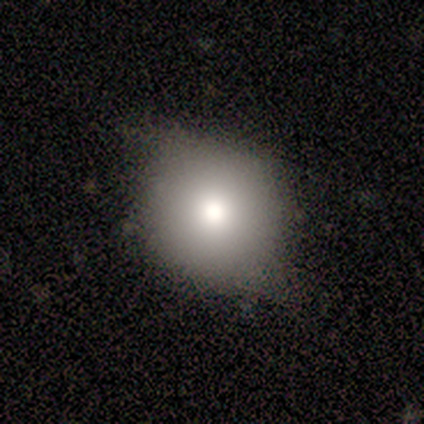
Smooth or featured? 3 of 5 (60%) said featured or disk. Edge-on disk? 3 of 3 (100%) said no. Bar? 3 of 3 (100%) said no. Spiral arms? 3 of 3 (100%) said no. Bulge size? 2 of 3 (67%) said moderate. Merging? 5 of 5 (100%) said minor disturbance.